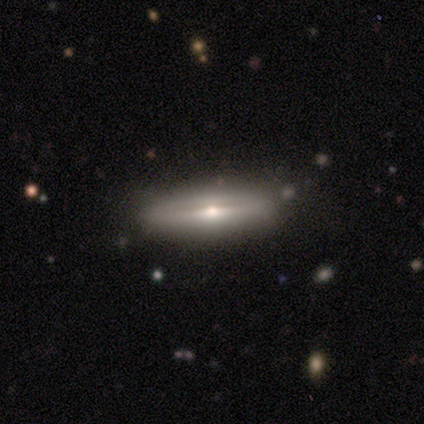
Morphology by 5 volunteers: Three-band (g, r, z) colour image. It shows a featured or disk galaxy (100%) viewed edge-on (80%) with a rounded central bulge (75%). Merging: none (80%).